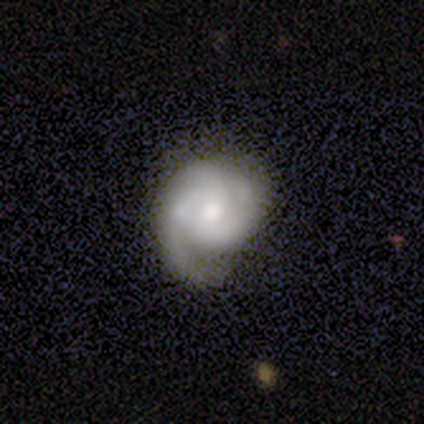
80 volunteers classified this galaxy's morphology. A featured or disk galaxy (82%) with no bar (67%), 2 (33%) tight (54%) spiral arms (92%) and a moderate central bulge (55%).

Vote fractions:
- Smooth or featured? featured or disk: 82% / smooth: 11% / star or artifact: 6%
- Edge-on disk? no: 100% / yes: 0%
- Bar? no: 67% / weak: 33% / strong: 0%
- Spiral arms? yes: 92% / no: 8%
- Spiral winding? tight: 54% / medium: 38% / loose: 8%
- Spiral arm count? 2: 33% / 3: 31% / can't tell: 20% / 1: 13% / 4: 3% / more than 4: 0%
- Bulge size? moderate: 55% / small: 24% / large: 15% / dominant: 3% / none: 3%
- Merging? none: 21% (tied) / minor disturbance: 21% (tied) / major disturbance: 7% / merger: 3%